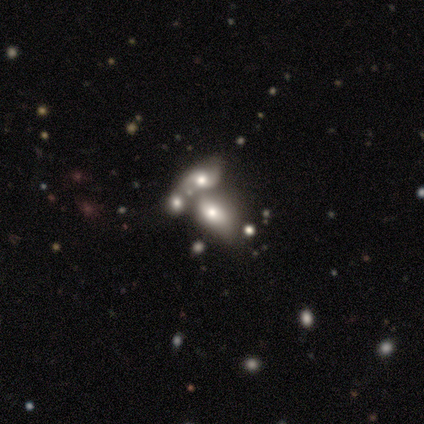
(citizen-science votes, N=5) smooth_or_featured: smooth (p=0.60) [alt: featured or disk p=0.40]
how_rounded: in between (p=1.00)
merging: merger (p=0.80) [alt: major disturbance p=0.20]